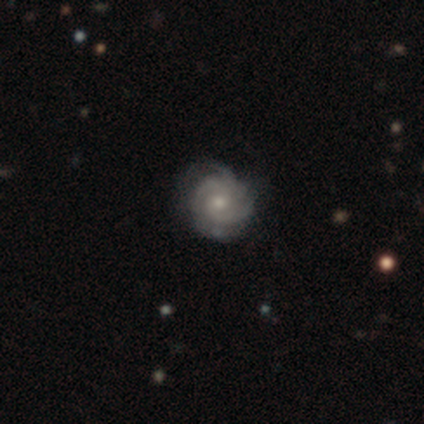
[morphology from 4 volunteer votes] Volunteers were most divided on "spiral winding": tight: 67%, medium: 33%, loose: 0%. More confident: edge-on disk — no (100%); bar — no (100%); spiral arms — yes (100%); merging — none (100%); smooth or featured — featured or disk (75%); spiral arm count — 3 (67%); bulge size — moderate (67%).